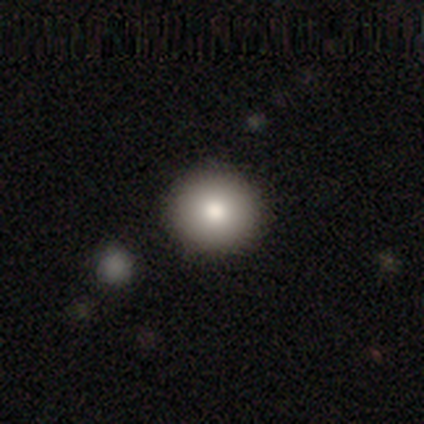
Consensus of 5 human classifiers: A smooth galaxy with no disk features (80%) that is round (100%). Merging: none (100%).